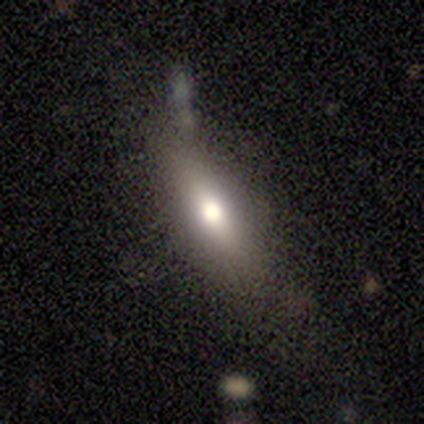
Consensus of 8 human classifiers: This is possibly a featured or disk galaxy (50%). It is likely viewed edge-on (75%). Edge-on bulge: clearly rounded (100%). Merging: likely none (71%).